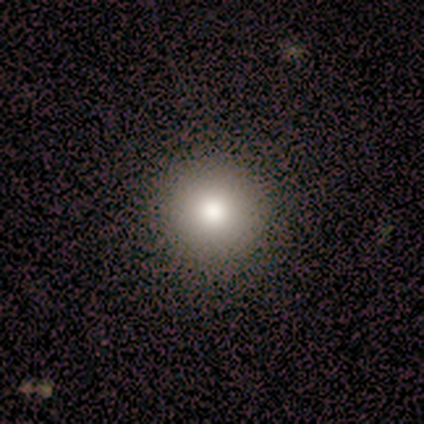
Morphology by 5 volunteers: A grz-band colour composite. It shows a smooth galaxy with no disk features (100%) that is round (100%). Merging: none (80%).